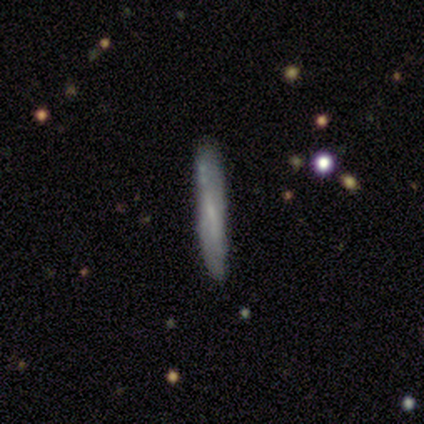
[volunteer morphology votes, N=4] A smooth galaxy with no disk features (75%) that is cigar-shaped (100%).

Vote fractions:
- Smooth or featured? smooth: 75% / featured or disk: 25% / star or artifact: 0%
- How rounded? cigar-shaped: 100% / round: 0% / in between: 0%
- Merging? none: 75% / minor disturbance: 25% / major disturbance: 0% / merger: 0%